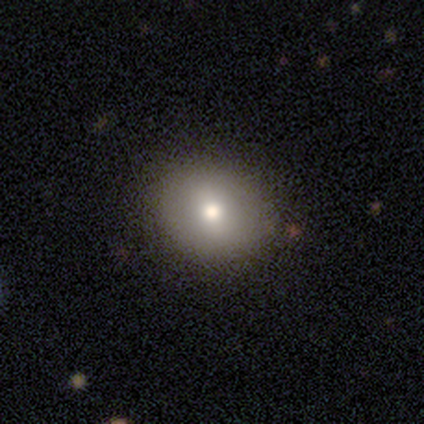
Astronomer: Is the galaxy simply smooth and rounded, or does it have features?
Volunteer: smooth — 80%.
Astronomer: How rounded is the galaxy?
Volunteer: round — 50%, tied with in between at 50%.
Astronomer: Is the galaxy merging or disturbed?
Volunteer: none — 100%.